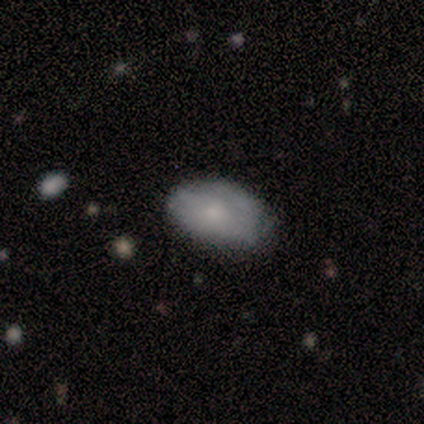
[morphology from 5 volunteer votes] Smooth or featured?
  - smooth: 80% *
  - featured or disk: 20%
  - star or artifact: 0%
How rounded?
  - in between: 100% *
  - round: 0%
  - cigar-shaped: 0%
Merging?
  - none: 60% *
  - minor disturbance: 40%
  - major disturbance: 0%
  - merger: 0%